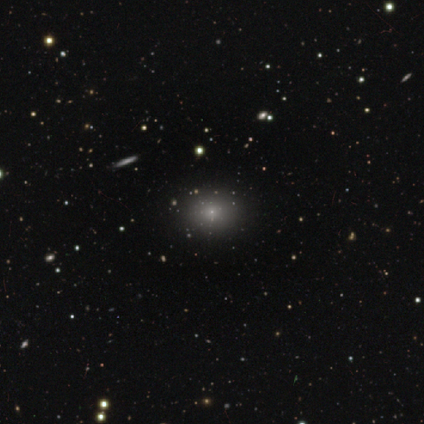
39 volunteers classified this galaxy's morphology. Smooth or featured? 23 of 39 (59%) said smooth. How rounded? 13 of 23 (57%) said round. Merging? 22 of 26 (85%) said none.